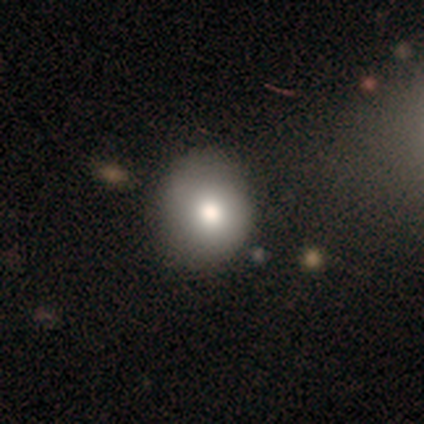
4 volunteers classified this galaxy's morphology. Smooth or featured?
  - star or artifact: 50% *
  - smooth: 25%
  - featured or disk: 25%